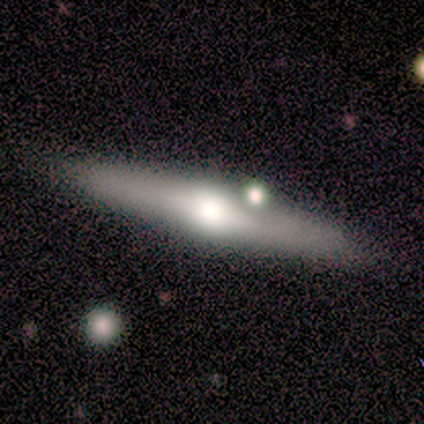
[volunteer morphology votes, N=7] Q: Smooth or featured?
A: featured or disk (57%); runner-up: smooth (43%)
Q: Edge-on disk?
A: yes (75%); runner-up: no (25%)
Q: Edge-on bulge?
A: rounded (67%); runner-up: none (33%)
Q: Merging?
A: none (86%); runner-up: minor disturbance (14%)